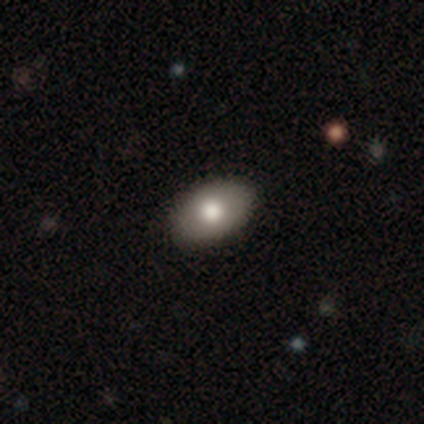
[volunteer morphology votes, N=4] A smooth galaxy with no disk features (50%, tied with featured or disk) that is in between round and cigar-shaped (100%). Merging: none (75%).